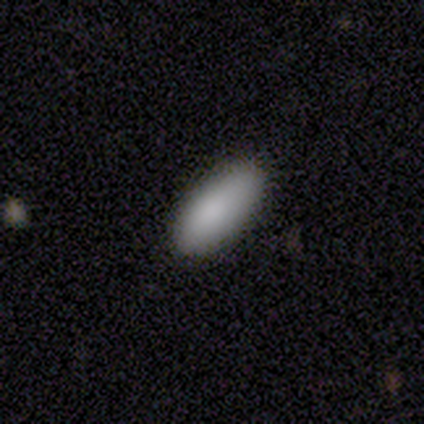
smooth-or-featured: smooth: 92% | featured or disk: 6% | star or artifact: 2%
  how-rounded: in between: 93% | cigar-shaped: 7% | round: 0%
  merging: none: 80% | minor disturbance: 20% | major disturbance: 0% | merger: 0%